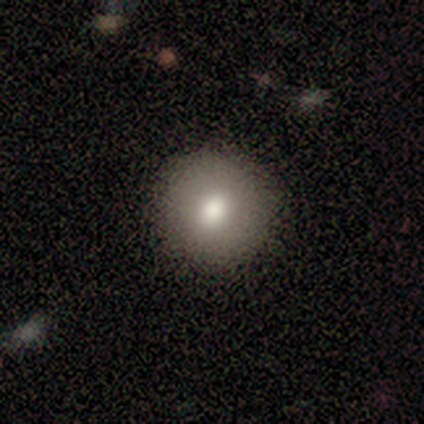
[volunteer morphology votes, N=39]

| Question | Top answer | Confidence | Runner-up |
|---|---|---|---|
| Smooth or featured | smooth | 85% | star or artifact (10%) |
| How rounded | round | 91% | in between (6%) |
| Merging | none | 57% | — |